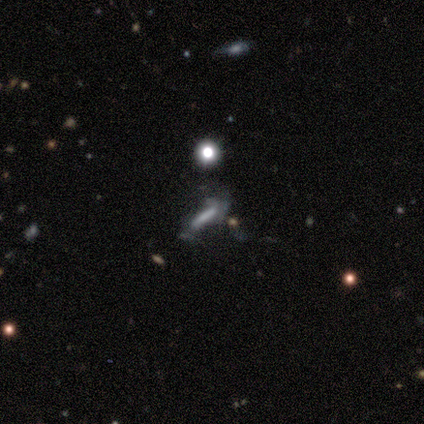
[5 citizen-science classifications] smooth_or_featured: star or artifact (p=0.60) [alt: smooth p=0.20]